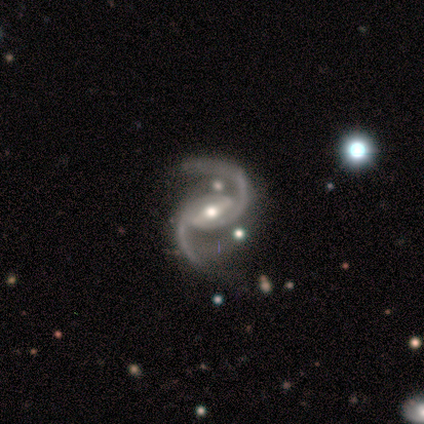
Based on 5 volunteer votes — Morphology: type=featured or disk (80%); edge-on=no (100%); bar=strong (75%); spiral arms=yes (100%); winding=medium (50%); arm count=2 (100%); bulge=moderate (50%); merging=minor disturbance (50%, tied with major disturbance).